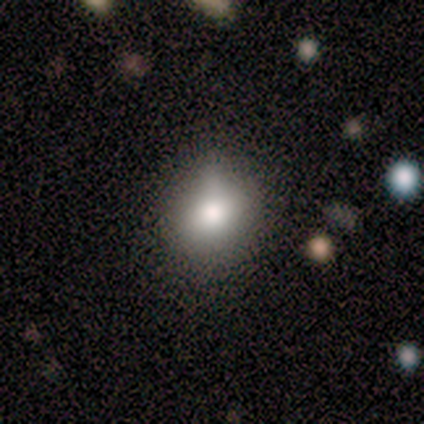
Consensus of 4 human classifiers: Volunteers were most divided on "smooth or featured": smooth: 75%, star or artifact: 25%, featured or disk: 0%. More confident: how rounded — round (100%); merging — none (100%).